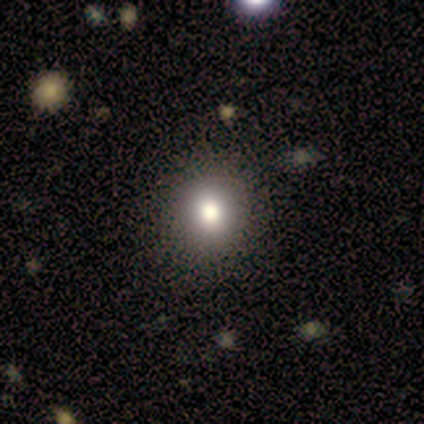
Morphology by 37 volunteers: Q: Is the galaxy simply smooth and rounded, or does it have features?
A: smooth — 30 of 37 (81%).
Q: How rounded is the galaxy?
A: round — 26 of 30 (87%).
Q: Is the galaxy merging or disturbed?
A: none — 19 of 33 (58%).